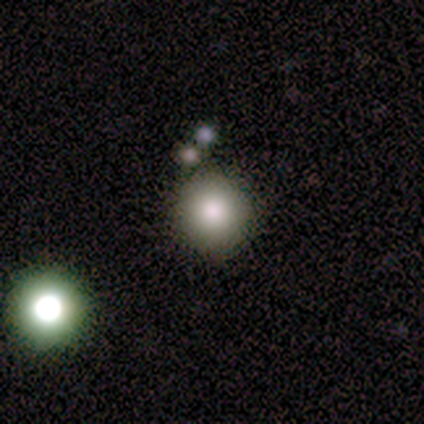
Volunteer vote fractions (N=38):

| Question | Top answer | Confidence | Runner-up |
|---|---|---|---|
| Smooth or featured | smooth | 82% | featured or disk (11%) |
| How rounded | round | 81% | in between (16%) |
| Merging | none | 83% | minor disturbance (11%) |